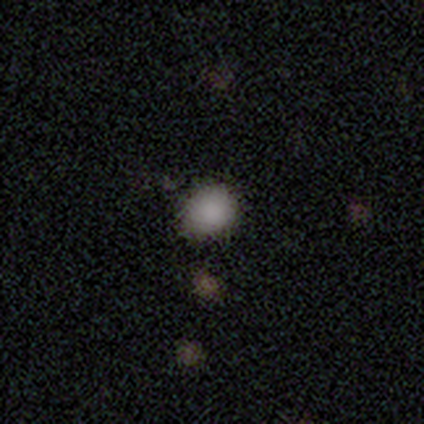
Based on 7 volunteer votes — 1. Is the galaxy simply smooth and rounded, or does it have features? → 86% smooth, 14% star or artifact, 0% featured or disk.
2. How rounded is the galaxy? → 83% round, 17% in between, 0% cigar-shaped.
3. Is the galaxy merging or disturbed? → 83% none, 17% minor disturbance, 0% major disturbance, 0% merger.